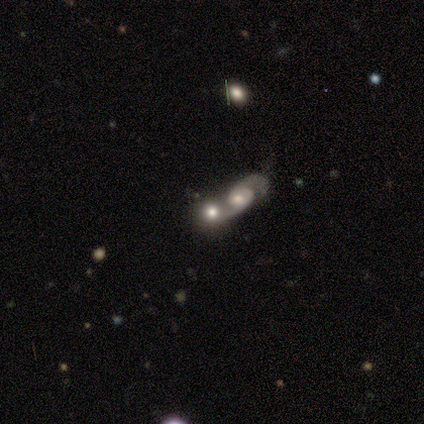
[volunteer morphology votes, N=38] smooth-or-featured: featured or disk: 71% | smooth: 16% | star or artifact: 13%
  disk-edge-on: no: 96% | yes: 4%
    bar: no: 81% | weak: 19% | strong: 0%
    has-spiral-arms: yes: 65% | no: 35%
      spiral-winding: medium: 53% | loose: 35% | tight: 12%
      spiral-arm-count: 2: 88% | 1: 6% | can't tell: 6% | 3: 0% | 4: 0% | more than 4: 0%
    bulge-size: moderate: 62% | small: 27% | large: 8% | dominant: 4% | none: 0%
  merging: merger: 76% | none: 12% | minor disturbance: 9% | major disturbance: 3%